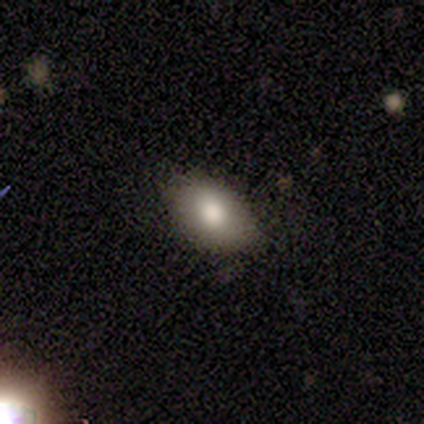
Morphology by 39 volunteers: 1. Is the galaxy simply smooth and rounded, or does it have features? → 85% smooth, 15% featured or disk, 0% star or artifact.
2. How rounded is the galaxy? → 94% in between, 3% round, 3% cigar-shaped.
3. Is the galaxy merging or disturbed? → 64% none, 5% minor disturbance, 3% merger, 0% major disturbance.